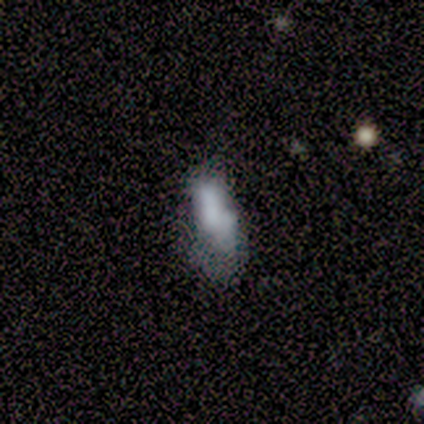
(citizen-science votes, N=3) Smooth or featured?
  - smooth: 67% *
  - featured or disk: 33%
  - star or artifact: 0%
How rounded?
  - in between: 50% * (tied)
  - cigar-shaped: 50% * (tied)
  - round: 0%
Merging?
  - none: 33% * (tied)
  - minor disturbance: 33% * (tied)
  - merger: 33% * (tied)
  - major disturbance: 0%